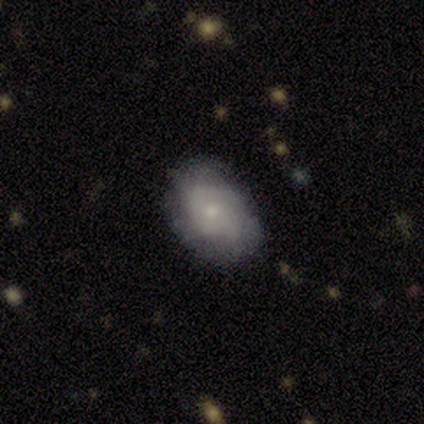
Smooth or featured?
  - smooth: 80% *
  - featured or disk: 20%
  - star or artifact: 0%
How rounded?
  - in between: 100% *
  - round: 0%
  - cigar-shaped: 0%
Merging?
  - none: 100% *
  - minor disturbance: 0%
  - major disturbance: 0%
  - merger: 0%